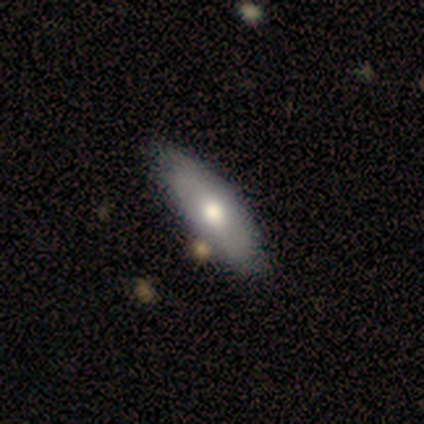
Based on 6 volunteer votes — Q: Smooth or featured?
A: featured or disk (50%); runner-up: smooth (33%)
Q: Edge-on disk?
A: no (100%)
Q: Bar?
A: no (100%)
Q: Spiral arms?
A: no (100%)
Q: Bulge size?
A: moderate (67%); runner-up: small (33%)
Q: Merging?
A: none (60%); runner-up: minor disturbance (20%)